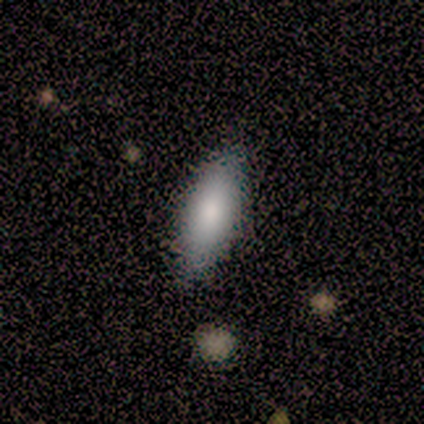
smooth-or-featured: smooth: 100% | featured or disk: 0% | star or artifact: 0%
  how-rounded: in between: 67% | cigar-shaped: 33% | round: 0%
  merging: none: 100% | minor disturbance: 0% | major disturbance: 0% | merger: 0%